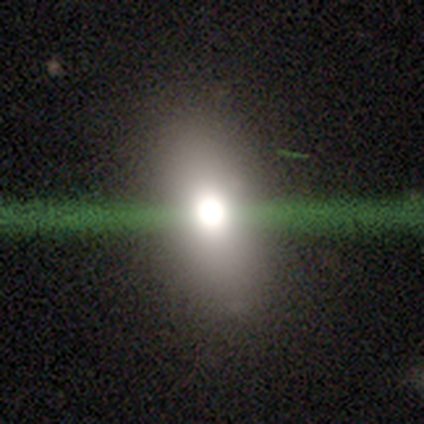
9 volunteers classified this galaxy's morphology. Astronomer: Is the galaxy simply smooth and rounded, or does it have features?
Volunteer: smooth — 44% (runner-up: star or artifact, 33%).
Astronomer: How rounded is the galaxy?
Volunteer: in between — 50%.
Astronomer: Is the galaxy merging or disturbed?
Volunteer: none — 100%.